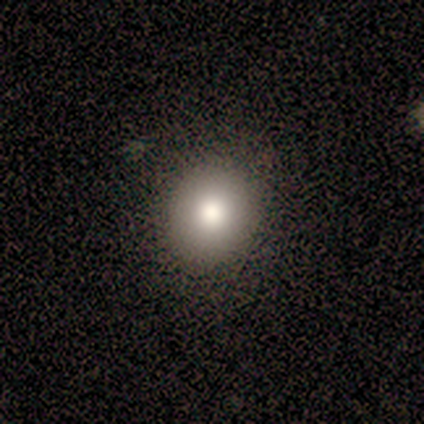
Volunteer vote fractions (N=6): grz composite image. It shows a smooth galaxy with no disk features (100%) that is round (100%). Merging: none (100%).